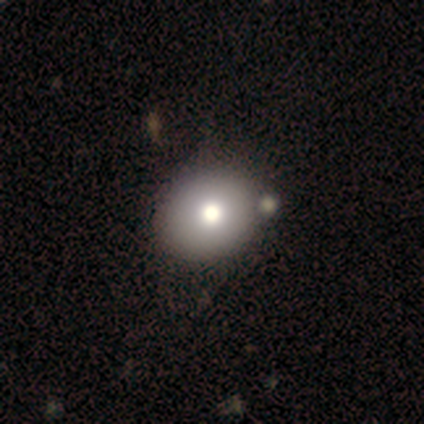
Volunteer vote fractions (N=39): This appears to be a smooth galaxy with no disk features (74%) that is round (62%). Merging: none (57%).